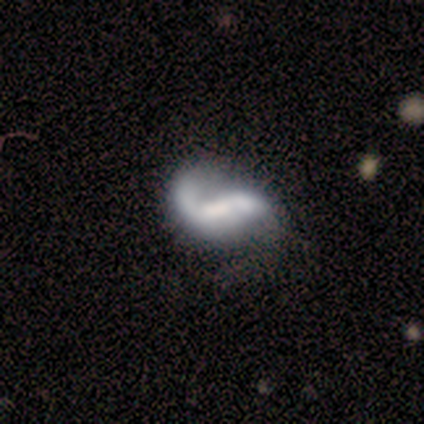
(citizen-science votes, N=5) Smooth or featured? featured or disk (80%)
Edge-on disk? no (100%)
Bar? weak (50%)
Spiral arms? yes (100%)
Spiral winding? loose (75%)
Spiral arm count? 2 (75%)
Bulge size? large (25%, tied with moderate, small and none)
Merging? none (40%, tied with minor disturbance)